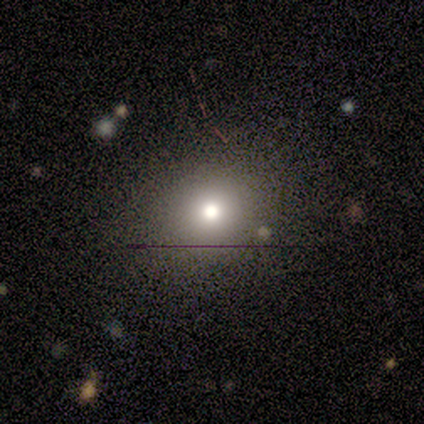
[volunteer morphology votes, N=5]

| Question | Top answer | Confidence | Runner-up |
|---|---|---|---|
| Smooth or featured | smooth | 60% | star or artifact (40%) |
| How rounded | round | 100% | — |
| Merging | none | 100% | — |